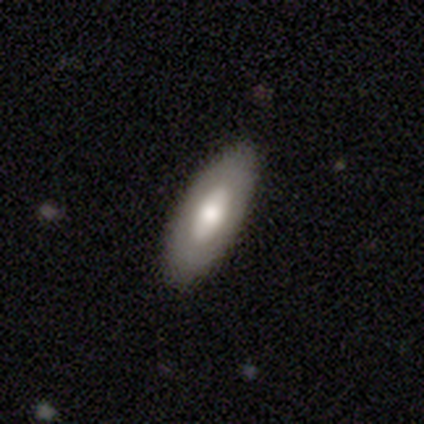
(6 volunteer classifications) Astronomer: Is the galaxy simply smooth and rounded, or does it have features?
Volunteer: smooth — 50%, tied with featured or disk at 50%.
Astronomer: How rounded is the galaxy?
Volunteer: in between — 67%.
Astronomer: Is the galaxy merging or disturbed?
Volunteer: none — 83%.